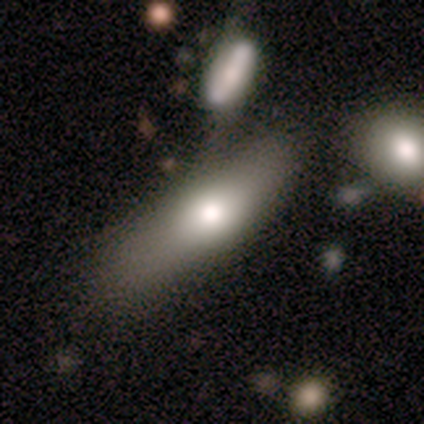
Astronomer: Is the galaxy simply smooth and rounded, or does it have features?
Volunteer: smooth — 80%.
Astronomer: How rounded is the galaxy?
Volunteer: in between — 50%, tied with cigar-shaped at 50%.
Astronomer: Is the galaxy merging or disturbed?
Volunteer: none — 40%, tied with minor disturbance at 40%.